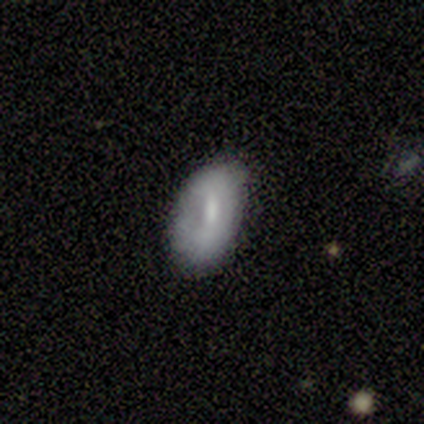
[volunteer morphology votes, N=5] Smooth or featured? 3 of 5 (60%) said smooth. How rounded? 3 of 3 (100%) said in between. Merging? 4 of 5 (80%) said minor disturbance.